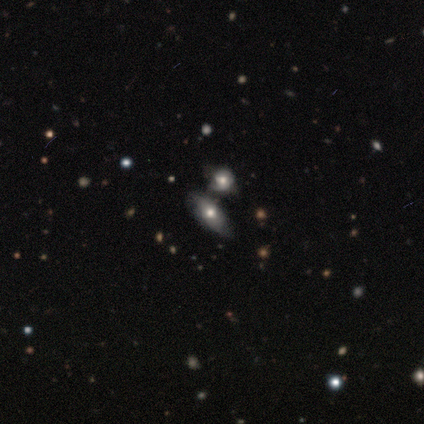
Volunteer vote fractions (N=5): Smooth or featured: featured or disk — 60% (smooth — 40%)
Edge-on disk: no — 67% (yes — 33%)
Bar: no — 100%
Spiral arms: no — 100%
Bulge size: moderate — 100%
Merging: merger — 60% (none — 40%)